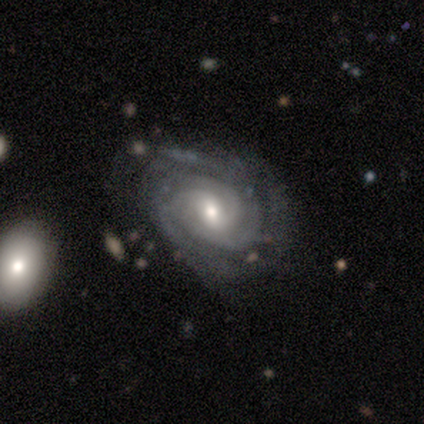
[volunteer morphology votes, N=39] Q: Smooth or featured?
A: featured or disk (97%); runner-up: star or artifact (3%)
Q: Edge-on disk?
A: no (97%); runner-up: yes (3%)
Q: Bar?
A: weak (62%); runner-up: no (32%)
Q: Spiral arms?
A: yes (100%)
Q: Spiral winding?
A: tight (59%); runner-up: medium (30%)
Q: Spiral arm count?
A: 3 (43%); runner-up: 2 (24%)
Q: Bulge size?
A: moderate (59%); runner-up: small (30%)
Q: Merging?
A: none (66%); runner-up: minor disturbance (21%)